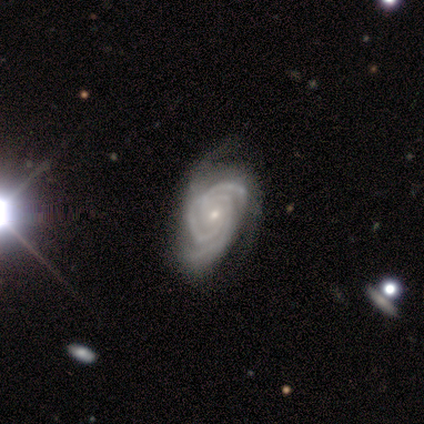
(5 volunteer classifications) Overall: featured or disk (100%). Edge-on disk: no (100%). Bar: no (80%). Spiral arms: yes (100%). Spiral arm count: 2 (60%; 3 20%). Spiral winding: tight (80%). Bulge size: small (80%). Merging: none (40%, tied with minor disturbance).